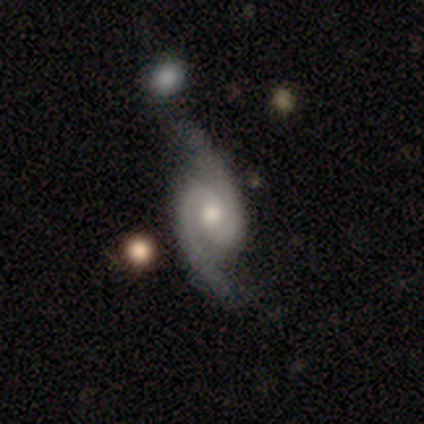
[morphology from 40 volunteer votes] featured or disk 98%, smooth 2%, star or artifact 0%. Down the decision tree: edge-on disk — no (97%); bar — no (66%); spiral arms — yes (100%); spiral arm count — 2 (100%); spiral winding — loose (50%); bulge size — moderate (71%); merging — none (38%).